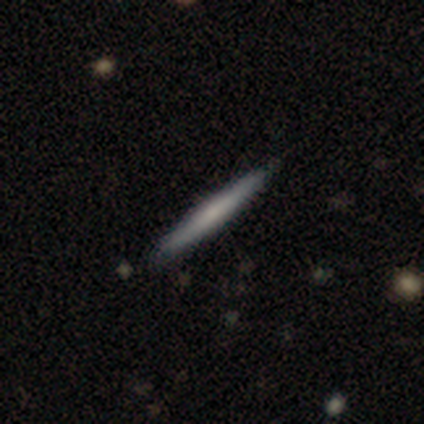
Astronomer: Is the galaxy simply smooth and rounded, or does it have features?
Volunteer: featured or disk — 80%.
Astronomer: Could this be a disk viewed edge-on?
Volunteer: yes — 100%.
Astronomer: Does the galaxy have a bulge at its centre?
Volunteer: boxy — 50%, tied with none at 50%.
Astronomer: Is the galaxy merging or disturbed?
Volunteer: none — 100%.